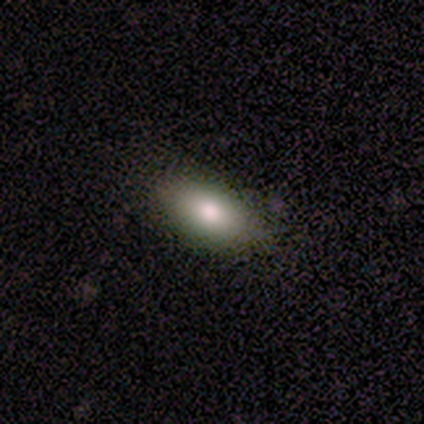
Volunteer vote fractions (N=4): smooth_or_featured: smooth (p=1.00)
how_rounded: in between (p=1.00)
merging: none (p=1.00)